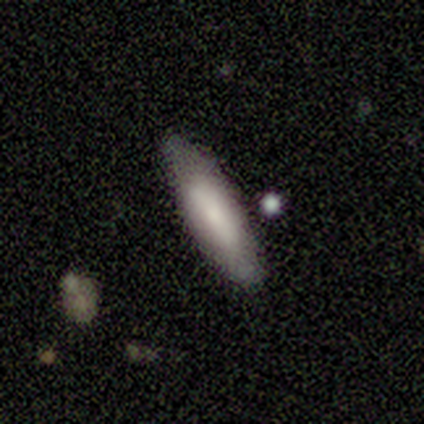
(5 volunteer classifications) Smooth or featured? smooth (80%)
How rounded? cigar-shaped (75%)
Merging? none (60%)